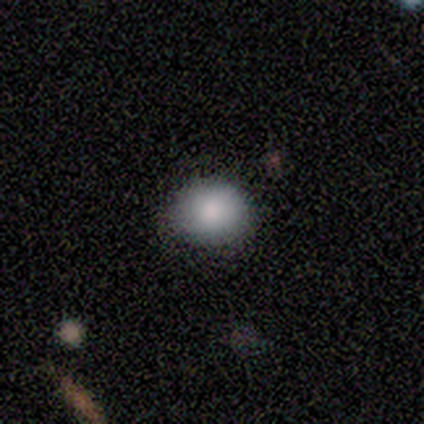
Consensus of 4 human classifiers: smooth-or-featured: smooth: 100% | featured or disk: 0% | star or artifact: 0%
  how-rounded: round: 75% | in between: 25% | cigar-shaped: 0%
  merging: none: 75% | minor disturbance: 25% | major disturbance: 0% | merger: 0%